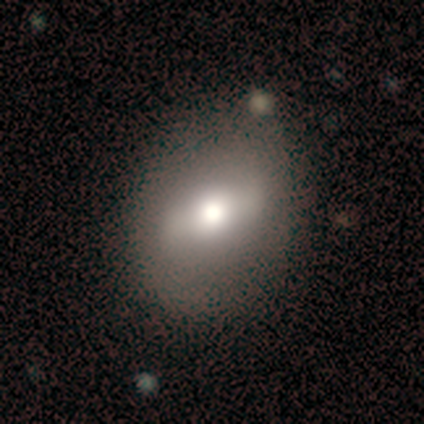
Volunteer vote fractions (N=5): Smooth or featured?
  - smooth: 40% * (tied)
  - star or artifact: 40% * (tied)
  - featured or disk: 20%
How rounded?
  - round: 50% * (tied)
  - in between: 50% * (tied)
  - cigar-shaped: 0%
Merging?
  - none: 67% *
  - minor disturbance: 33%
  - major disturbance: 0%
  - merger: 0%